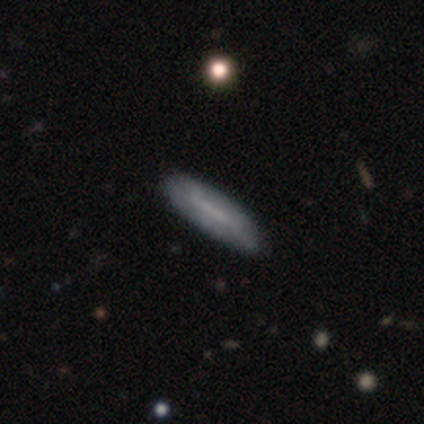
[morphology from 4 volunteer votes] smooth 50% (tied), featured or disk 50% (tied), star or artifact 0%. Down the decision tree: how rounded — cigar-shaped (100%); merging — none (100%).